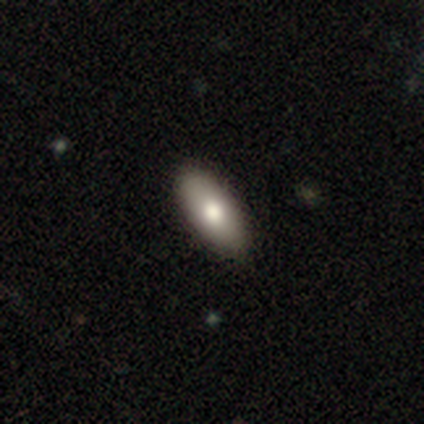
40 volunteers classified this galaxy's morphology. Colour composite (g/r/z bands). It shows a smooth galaxy with no disk features (82%) that is in between round and cigar-shaped (91%). Merging: none (70%).